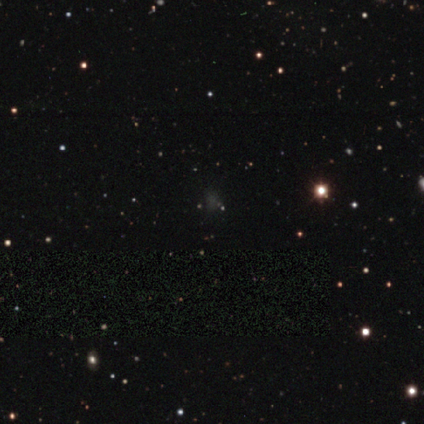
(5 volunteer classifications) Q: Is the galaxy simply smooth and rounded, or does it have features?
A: star or artifact — 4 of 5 (80%).